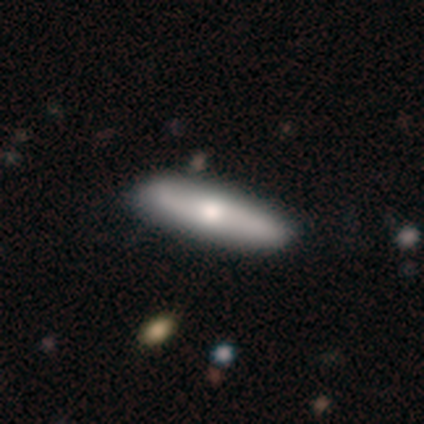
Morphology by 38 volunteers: A featured or disk galaxy (53%) with no bar (67%), 2 (100%) medium (50%, tied with loose) spiral arms (50%, tied with no) and a moderate central bulge (58%). Merging: none (63%).